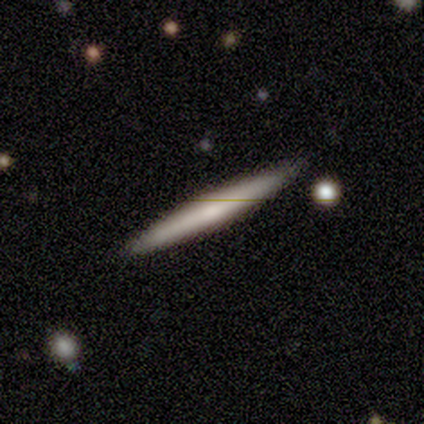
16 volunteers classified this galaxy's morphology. smooth 50% (tied), featured or disk 50% (tied), star or artifact 0%. Down the decision tree: how rounded — cigar-shaped (100%); merging — none (100%).